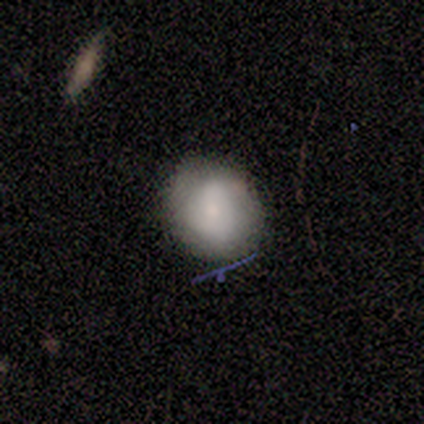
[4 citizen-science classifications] Overall: smooth (75%). How rounded: round (100%). Merging: none (75%).